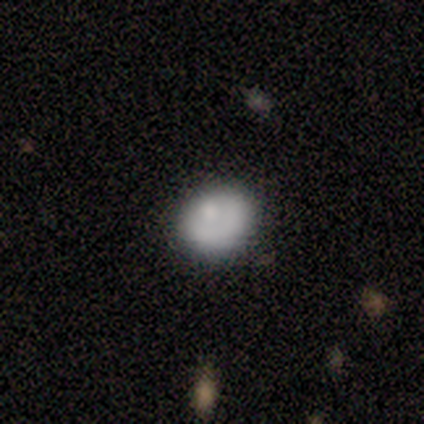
This appears to be a smooth galaxy with no disk features (83%) that is round (80%). Merging: none (80%).